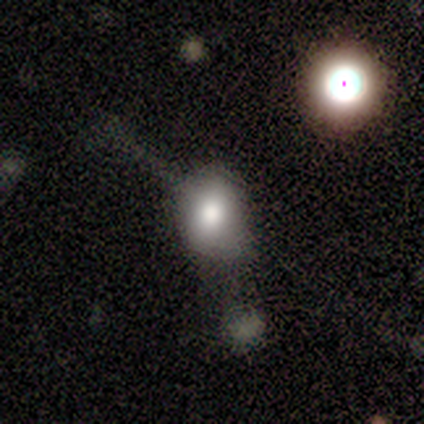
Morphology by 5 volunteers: Smooth or featured?
  - smooth: 80% *
  - featured or disk: 20%
  - star or artifact: 0%
How rounded?
  - round: 50% * (tied)
  - in between: 50% * (tied)
  - cigar-shaped: 0%
Merging?
  - merger: 40% *
  - none: 20%
  - minor disturbance: 20%
  - major disturbance: 20%